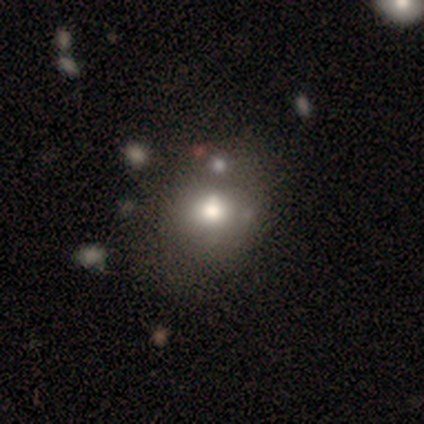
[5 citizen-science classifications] Smooth or featured? 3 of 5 (60%) said smooth. How rounded? 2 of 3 (67%) said in between. Merging? 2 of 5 (40%) said none.